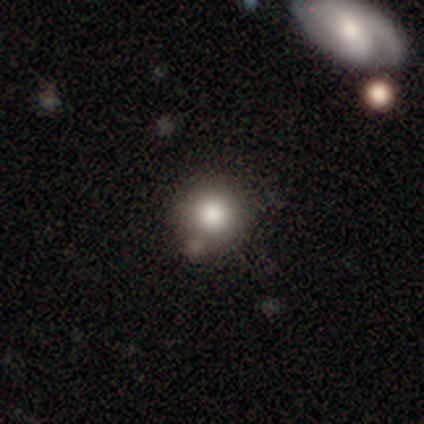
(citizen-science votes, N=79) Morphology: type=smooth (81%); roundness=round (92%); merging=none (41%).